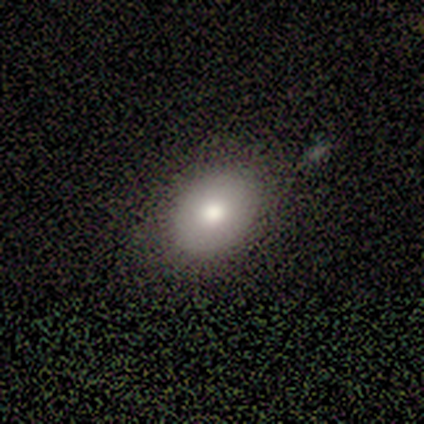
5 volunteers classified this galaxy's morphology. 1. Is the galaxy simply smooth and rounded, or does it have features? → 80% smooth, 20% featured or disk, 0% star or artifact.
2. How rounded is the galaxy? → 100% in between, 0% round, 0% cigar-shaped.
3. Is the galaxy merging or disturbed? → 100% none, 0% minor disturbance, 0% major disturbance, 0% merger.